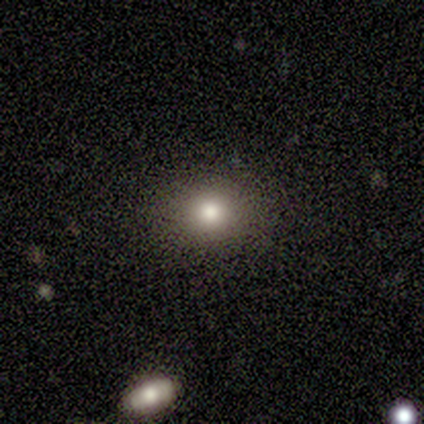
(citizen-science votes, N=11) A smooth galaxy with no disk features (73%) that is round (50%, tied with in between).

Vote fractions:
- Smooth or featured? smooth: 73% / star or artifact: 18% / featured or disk: 9%
- How rounded? round: 50% (tied) / in between: 50% (tied) / cigar-shaped: 0%
- Merging? none: 78% / minor disturbance: 22% / major disturbance: 0% / merger: 0%